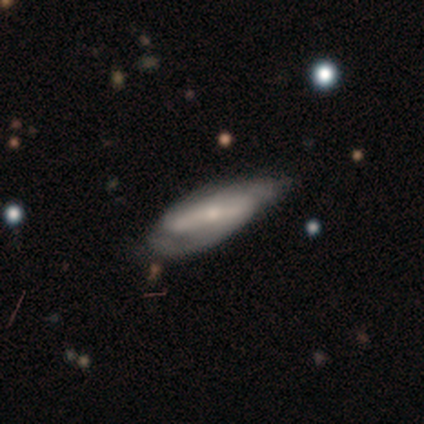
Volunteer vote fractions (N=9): Overall: featured or disk (56%; smooth 44%). Edge-on disk: no (100%). Bar: strong (60%; no 40%). Spiral arms: yes (80%). Spiral arm count: 2 (50%, tied with can't tell). Spiral winding: medium (75%). Bulge size: small (80%). Merging: minor disturbance (56%; none 33%).